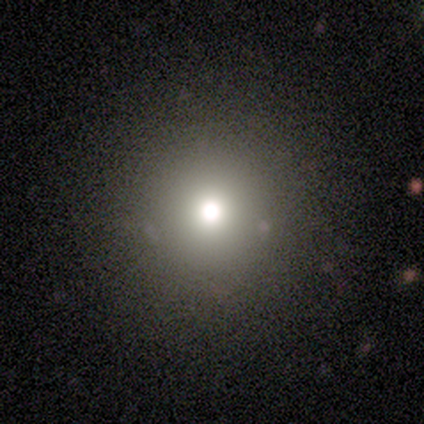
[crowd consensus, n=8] Morphology: type=smooth (88%); roundness=round (100%); merging=none (86%).